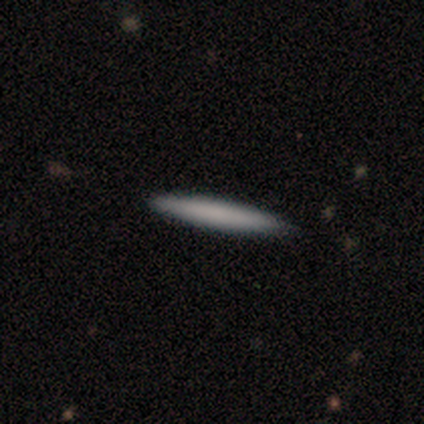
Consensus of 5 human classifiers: Smooth or featured: smooth — 80% (featured or disk — 20%)
How rounded: cigar-shaped — 100%
Merging: none — 100%